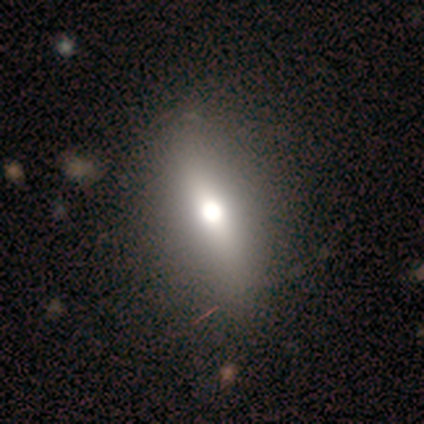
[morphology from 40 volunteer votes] smooth 68%, featured or disk 25%, star or artifact 8%. Down the decision tree: how rounded — in between (70%); merging — none (49%).